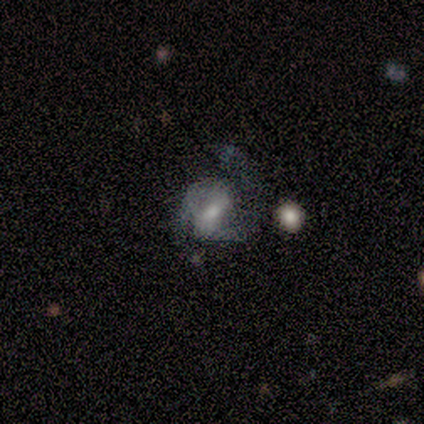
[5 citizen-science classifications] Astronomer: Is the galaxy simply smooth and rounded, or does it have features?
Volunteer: featured or disk — 100%.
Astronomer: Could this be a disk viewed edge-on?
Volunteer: no — 100%.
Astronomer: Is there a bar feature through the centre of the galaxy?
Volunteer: weak — 60%.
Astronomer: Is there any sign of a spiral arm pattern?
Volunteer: yes — 80%.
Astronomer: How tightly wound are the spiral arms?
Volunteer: medium — 50%.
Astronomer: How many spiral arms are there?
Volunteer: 2 — 75%.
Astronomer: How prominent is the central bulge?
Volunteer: moderate — 40%, tied with small at 40%.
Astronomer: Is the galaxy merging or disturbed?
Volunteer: none — 40%, tied with major disturbance at 40%.